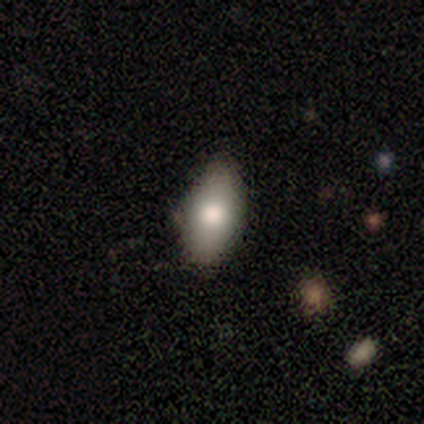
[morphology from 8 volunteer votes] This is clearly a smooth galaxy (100%). How rounded: clearly in between (100%). Merging: likely none (62%).